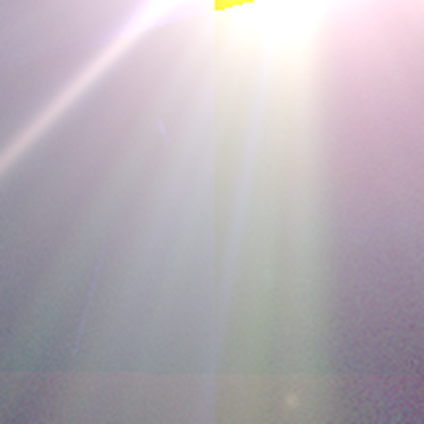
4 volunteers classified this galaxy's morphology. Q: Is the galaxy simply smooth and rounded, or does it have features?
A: star or artifact — 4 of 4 (100%).